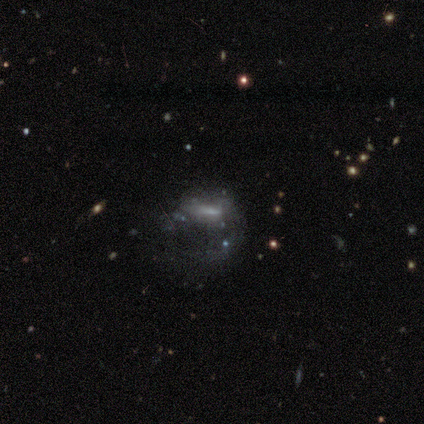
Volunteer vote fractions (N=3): Smooth or featured? featured or disk (100%)
Edge-on disk? no (100%)
Bar? no (67%)
Spiral arms? no (67%)
Bulge size? small (100%)
Merging? major disturbance (67%)